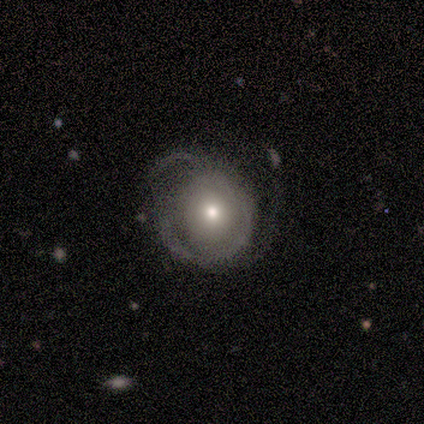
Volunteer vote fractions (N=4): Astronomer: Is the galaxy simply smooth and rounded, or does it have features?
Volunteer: featured or disk — 100%.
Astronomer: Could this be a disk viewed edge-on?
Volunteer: no — 100%.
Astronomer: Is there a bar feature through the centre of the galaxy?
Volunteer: no — 75%.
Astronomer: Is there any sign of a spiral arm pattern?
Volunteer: yes — 75%.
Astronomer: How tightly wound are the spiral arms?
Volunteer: tight — 100%.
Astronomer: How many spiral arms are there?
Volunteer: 3 — 67%.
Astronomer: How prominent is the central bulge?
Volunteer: small — 75%.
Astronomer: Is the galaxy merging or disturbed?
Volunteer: none — 50%.